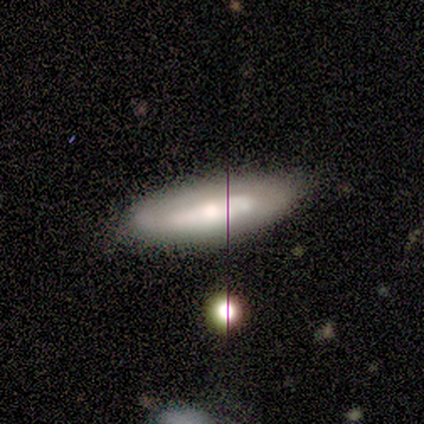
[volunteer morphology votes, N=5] Q: Smooth or featured?
A: featured or disk (60%); runner-up: smooth (40%)
Q: Edge-on disk?
A: no (67%); runner-up: yes (33%)
Q: Bar?
A: weak (50%); tied with: no (50%)
Q: Spiral arms?
A: no (100%)
Q: Bulge size?
A: small (100%)
Q: Merging?
A: none (60%); runner-up: minor disturbance (40%)